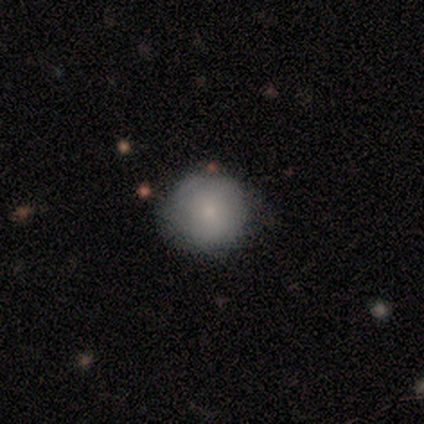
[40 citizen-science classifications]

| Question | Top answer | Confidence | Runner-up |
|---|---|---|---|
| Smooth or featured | smooth | 85% | featured or disk (10%) |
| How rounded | round | 94% | in between (6%) |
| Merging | none | 87% | minor disturbance (8%) |